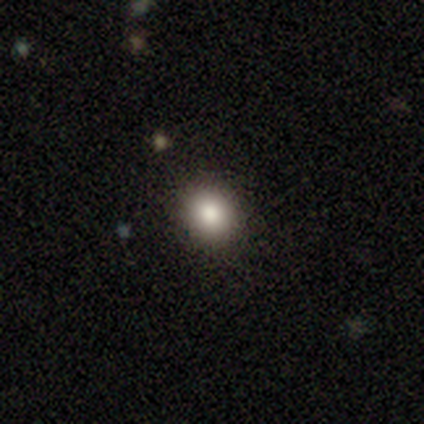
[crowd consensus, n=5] smooth 100%, featured or disk 0%, star or artifact 0%. Down the decision tree: how rounded — round (100%); merging — none (80%).